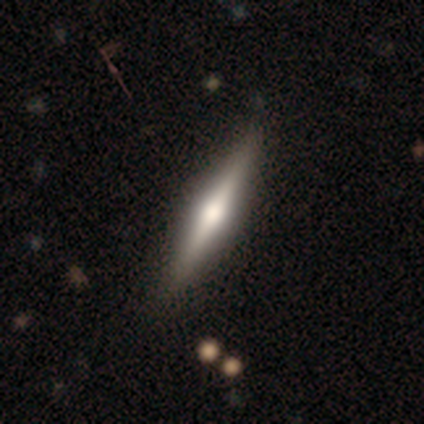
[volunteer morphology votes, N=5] This is marginally a smooth galaxy (40%, tied with featured or disk). How rounded: clearly cigar-shaped (100%). Merging: clearly none (100%).